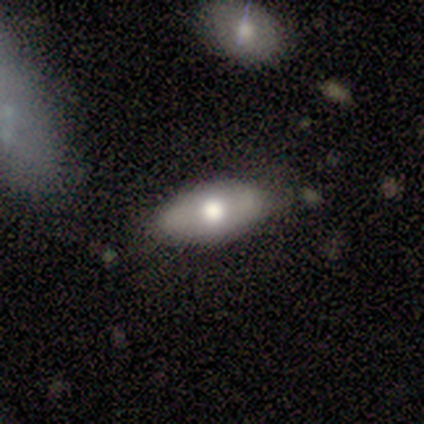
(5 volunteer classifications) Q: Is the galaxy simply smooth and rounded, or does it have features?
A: featured or disk — 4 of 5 (80%).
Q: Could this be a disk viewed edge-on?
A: no — 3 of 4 (75%).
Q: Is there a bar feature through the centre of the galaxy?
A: no — 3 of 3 (100%).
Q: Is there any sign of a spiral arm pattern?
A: no — 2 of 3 (67%).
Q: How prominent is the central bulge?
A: moderate — 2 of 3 (67%).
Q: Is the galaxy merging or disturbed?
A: none — 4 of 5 (80%).